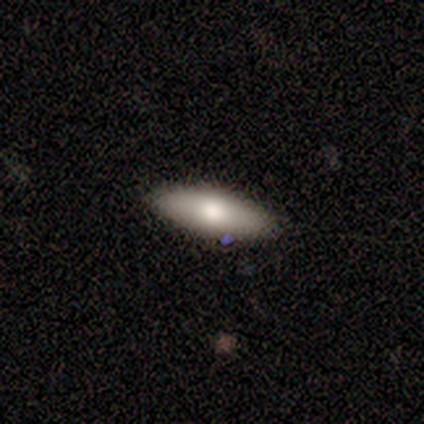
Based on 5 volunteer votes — Q: Smooth or featured?
A: smooth (40%); tied with: featured or disk (40%)
Q: How rounded?
A: in between (50%); tied with: cigar-shaped (50%)
Q: Merging?
A: none (75%); runner-up: minor disturbance (25%)